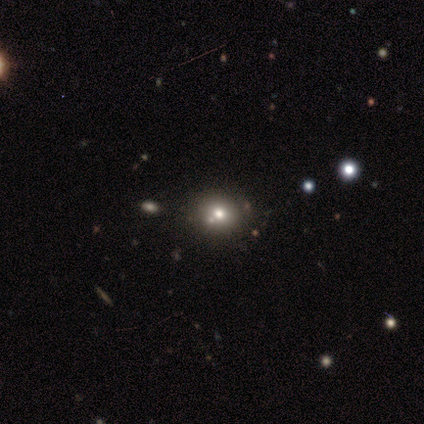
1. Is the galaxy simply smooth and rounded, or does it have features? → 80% smooth, 20% featured or disk, 0% star or artifact.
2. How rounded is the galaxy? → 75% in between, 25% round, 0% cigar-shaped.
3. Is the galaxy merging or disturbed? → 100% none, 0% minor disturbance, 0% major disturbance, 0% merger.